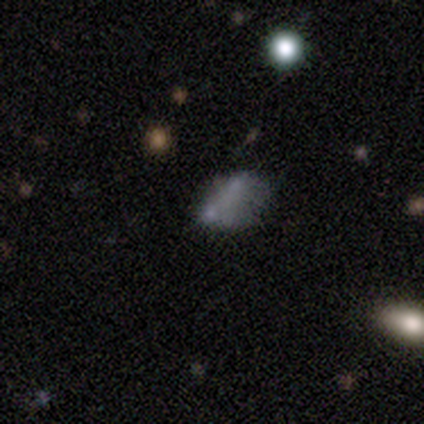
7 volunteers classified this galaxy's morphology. Smooth or featured? 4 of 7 (57%) said smooth. How rounded? 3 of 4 (75%) said in between. Merging? 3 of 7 (43%) said minor disturbance.